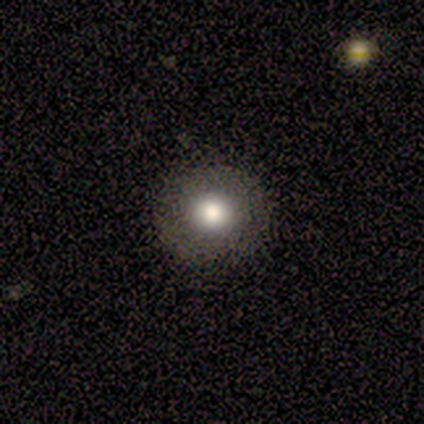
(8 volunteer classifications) Smooth or featured? 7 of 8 (88%) said smooth. How rounded? 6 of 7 (86%) said round. Merging? 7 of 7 (100%) said none.